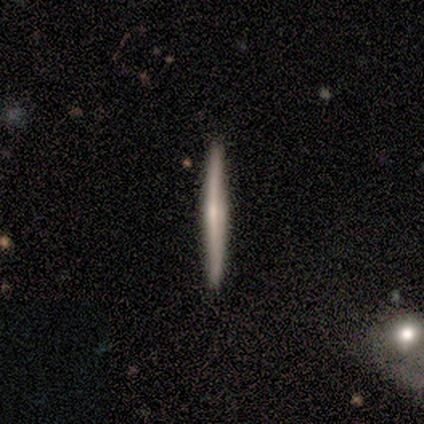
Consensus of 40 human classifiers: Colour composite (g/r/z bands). It shows a featured or disk galaxy (65%) viewed edge-on (100%) with no central bulge (58%). Merging: none (90%).